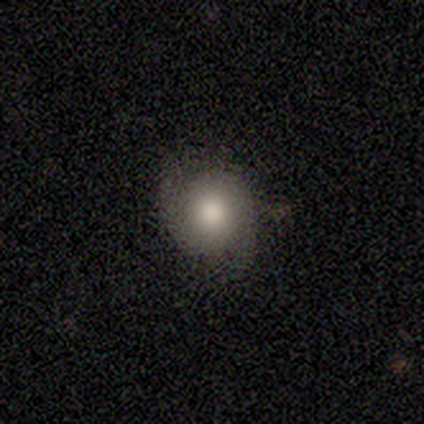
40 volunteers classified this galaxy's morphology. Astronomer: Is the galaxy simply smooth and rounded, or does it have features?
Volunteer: featured or disk — 55% (runner-up: smooth, 40%).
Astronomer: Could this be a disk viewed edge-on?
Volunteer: no — 95%.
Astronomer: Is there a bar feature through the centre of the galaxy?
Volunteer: no — 95%.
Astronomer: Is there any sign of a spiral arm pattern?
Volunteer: yes — 95%.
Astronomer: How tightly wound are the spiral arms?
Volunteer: tight — 45% (runner-up: medium, 35%).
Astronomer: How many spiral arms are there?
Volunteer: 2 — 85%.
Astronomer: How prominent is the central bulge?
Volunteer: moderate — 43% (runner-up: large, 33%).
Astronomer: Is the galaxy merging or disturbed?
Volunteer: none — 66%.